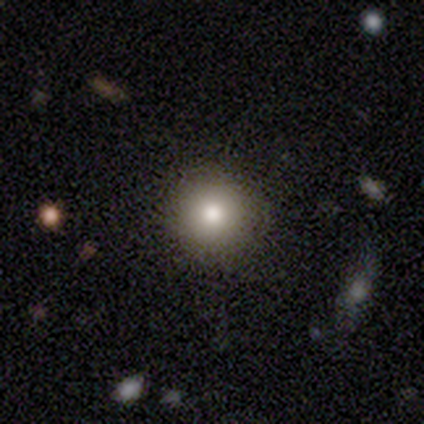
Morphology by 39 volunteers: smooth 79%, star or artifact 18%, featured or disk 3%. Down the decision tree: how rounded — round (97%); merging — none (97%).